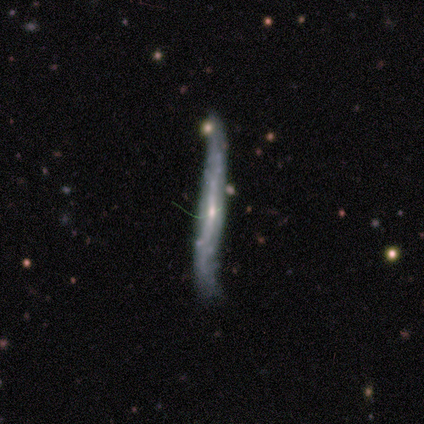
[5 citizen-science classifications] A featured or disk galaxy (100%) viewed edge-on (100%) with a rounded central bulge (80%).

Vote fractions:
- Smooth or featured? featured or disk: 100% / smooth: 0% / star or artifact: 0%
- Edge-on disk? yes: 100% / no: 0%
- Edge-on bulge? rounded: 80% / none: 20% / boxy: 0%
- Merging? none: 40% (tied) / minor disturbance: 40% (tied) / merger: 20% / major disturbance: 0%